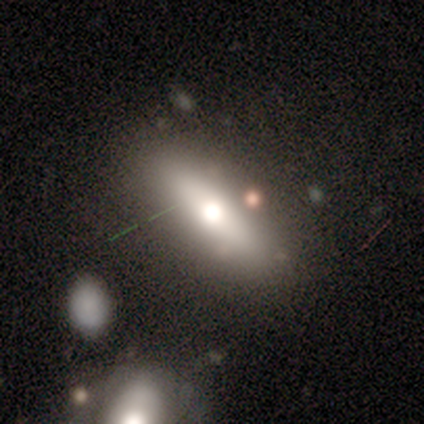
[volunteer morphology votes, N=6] A smooth galaxy with no disk features (67%) that is cigar-shaped (75%). Merging: none (100%).